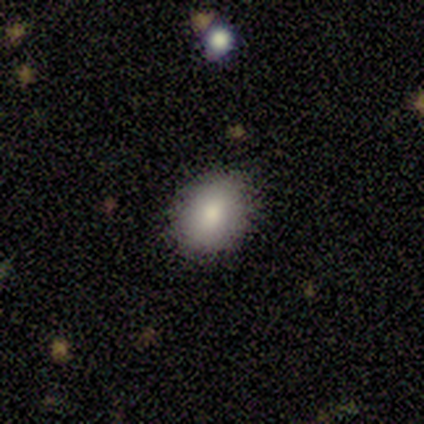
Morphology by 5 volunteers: Smooth or featured? 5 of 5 (100%) said smooth. How rounded? 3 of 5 (60%) said in between. Merging? 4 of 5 (80%) said none.